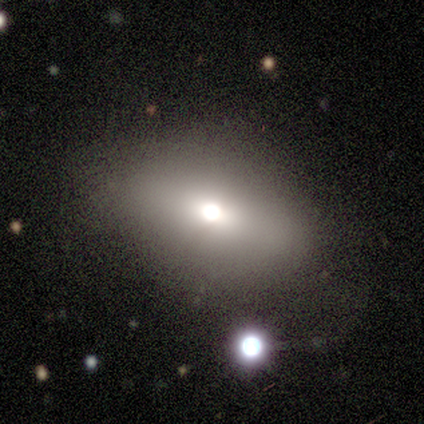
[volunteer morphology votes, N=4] A smooth galaxy with no disk features (75%) that is in between round and cigar-shaped (67%).

Vote fractions:
- Smooth or featured? smooth: 75% / star or artifact: 25% / featured or disk: 0%
- How rounded? in between: 67% / round: 33% / cigar-shaped: 0%
- Merging? none: 100% / minor disturbance: 0% / major disturbance: 0% / merger: 0%